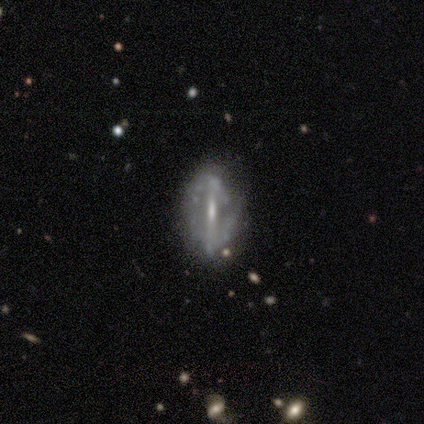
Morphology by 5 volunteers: Volunteers were most divided on "spiral arms" (2-way tie): yes: 50%, no: 50%; "spiral winding" (2-way tie): tight: 50%, loose: 50%, medium: 0%; "bulge size" (2-way tie): moderate: 50%, small: 50%, dominant: 0%, large: 0%, none: 0%. More confident: smooth or featured — featured or disk (100%); spiral arm count — 2 (100%); edge-on disk — no (80%); merging — none (80%); bar — strong (75%).